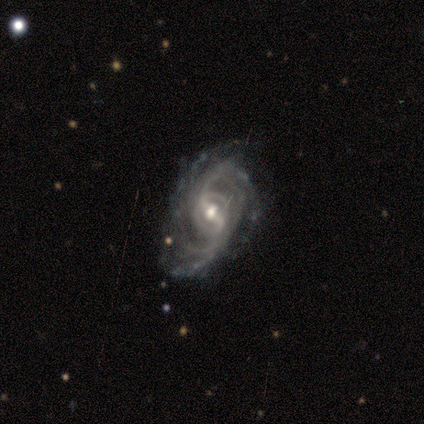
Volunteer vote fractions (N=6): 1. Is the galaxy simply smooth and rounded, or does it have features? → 83% featured or disk, 17% smooth, 0% star or artifact.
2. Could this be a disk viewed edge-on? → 100% no, 0% yes.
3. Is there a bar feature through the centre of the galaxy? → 60% weak, 40% strong, 0% no.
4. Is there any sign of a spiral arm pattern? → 100% yes, 0% no.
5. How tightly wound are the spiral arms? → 100% loose, 0% tight, 0% medium.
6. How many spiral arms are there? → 100% 2, 0% 1, 0% 3, 0% 4, 0% more than 4, 0% can't tell.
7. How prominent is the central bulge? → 60% moderate, 40% small, 0% dominant, 0% large, 0% none.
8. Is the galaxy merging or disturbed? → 50% none, 33% minor disturbance, 17% major disturbance, 0% merger.